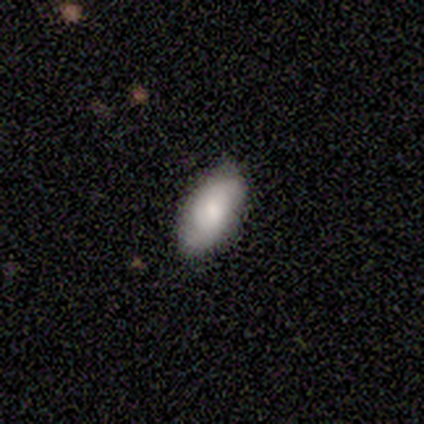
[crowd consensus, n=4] Smooth or featured: smooth — 50% (tied with featured or disk — 50%)
How rounded: in between — 100%
Merging: none — 75% (minor disturbance — 25%)